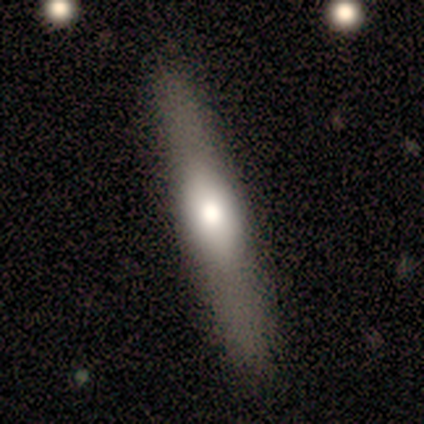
Smooth or featured: featured or disk — 80% (smooth — 20%)
Edge-on disk: yes — 100%
Edge-on bulge: rounded — 100%
Merging: none — 100%